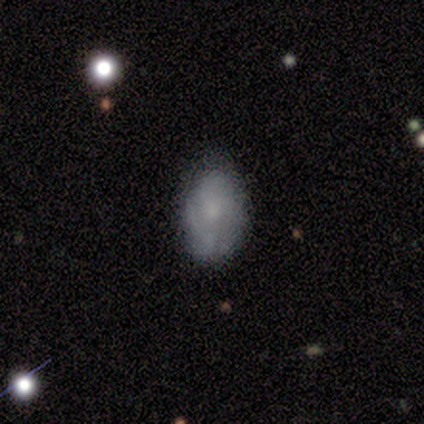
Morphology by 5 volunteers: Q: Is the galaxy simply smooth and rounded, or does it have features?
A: featured or disk — 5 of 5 (100%).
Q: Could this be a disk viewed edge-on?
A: no — 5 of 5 (100%).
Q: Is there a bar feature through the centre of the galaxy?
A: no — 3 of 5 (60%).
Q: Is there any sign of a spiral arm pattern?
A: yes — 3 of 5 (60%).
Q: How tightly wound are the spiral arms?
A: tight — 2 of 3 (67%).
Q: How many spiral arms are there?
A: can't tell — 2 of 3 (67%).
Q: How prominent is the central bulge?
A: moderate — 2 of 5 (40%, tied with small).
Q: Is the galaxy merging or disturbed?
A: minor disturbance — 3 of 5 (60%).